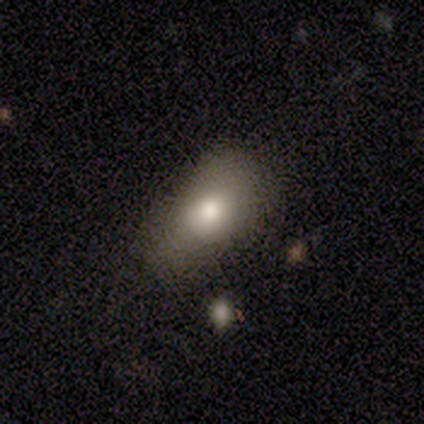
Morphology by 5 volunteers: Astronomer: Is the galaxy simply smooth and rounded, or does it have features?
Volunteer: smooth — 80%.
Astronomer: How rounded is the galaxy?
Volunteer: in between — 100%.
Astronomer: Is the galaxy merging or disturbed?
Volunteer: none — 80%.